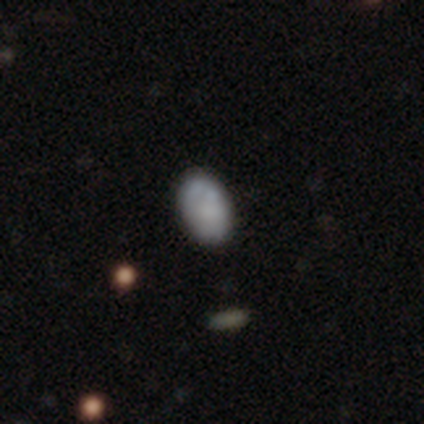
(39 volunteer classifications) Overall: smooth (72%). How rounded: in between (79%). Merging: none (92%).